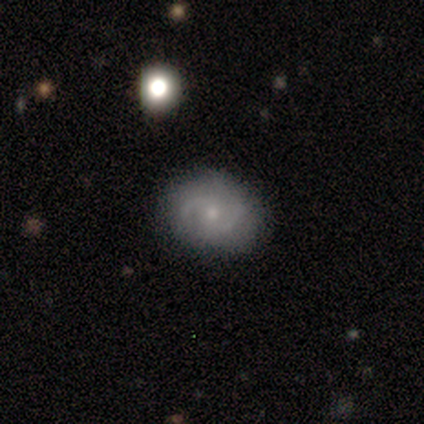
smooth_or_featured: featured or disk (p=0.80) [alt: smooth p=0.20]
disk_edge_on: no (p=1.00)
bar: no (p=0.75) [alt: weak p=0.25]
has_spiral_arms: yes (p=1.00)
spiral_winding: medium (p=0.75) [alt: loose p=0.25]
spiral_arm_count: 2 (p=1.00)
bulge_size: moderate (p=0.50) [tied with: small p=0.50]
merging: none (p=1.00)